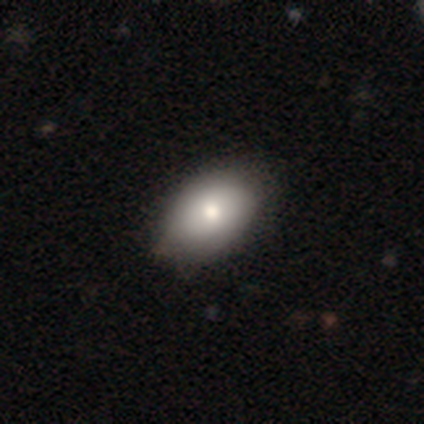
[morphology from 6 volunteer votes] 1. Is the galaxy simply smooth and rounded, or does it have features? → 83% smooth, 17% featured or disk, 0% star or artifact.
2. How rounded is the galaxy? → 80% in between, 20% round, 0% cigar-shaped.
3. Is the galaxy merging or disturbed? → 67% none, 33% minor disturbance, 0% major disturbance, 0% merger.